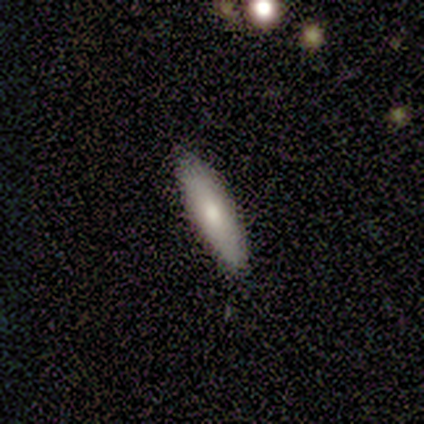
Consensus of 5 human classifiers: A smooth galaxy with no disk features (80%) that is cigar-shaped (75%).

Vote fractions:
- Smooth or featured? smooth: 80% / featured or disk: 20% / star or artifact: 0%
- How rounded? cigar-shaped: 75% / in between: 25% / round: 0%
- Merging? none: 80% / minor disturbance: 20% / major disturbance: 0% / merger: 0%